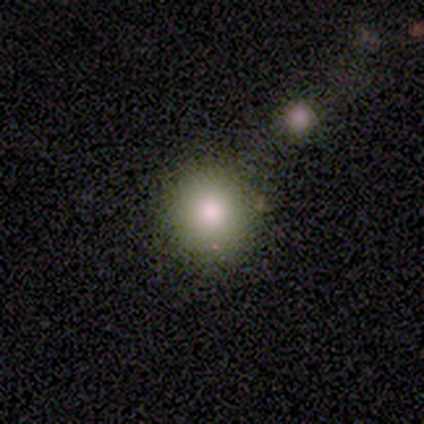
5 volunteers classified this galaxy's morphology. This is clearly a smooth galaxy (80%). How rounded: clearly round (100%). Merging: clearly none (100%).